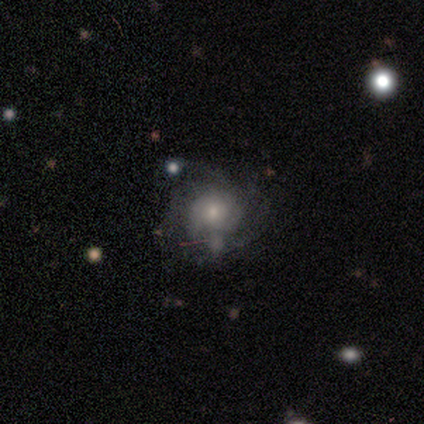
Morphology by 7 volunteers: This appears to be a featured or disk galaxy (43%) with no bar (100%), 3 (50%, tied with can't tell) tight (50%, tied with medium) spiral arms (67%) and a small central bulge (67%). Merging: none (40%, tied with minor disturbance).